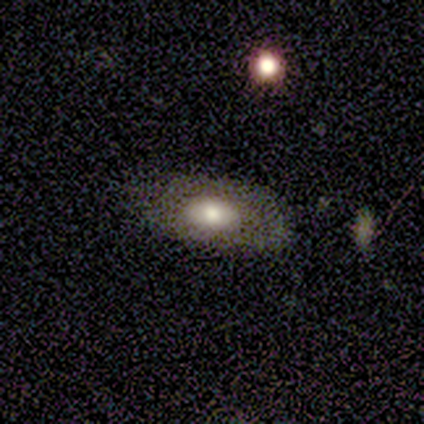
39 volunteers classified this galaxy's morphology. Smooth or featured: smooth — 54% (featured or disk — 41%)
How rounded: in between — 100%
Merging: none — 78% (minor disturbance — 16%)